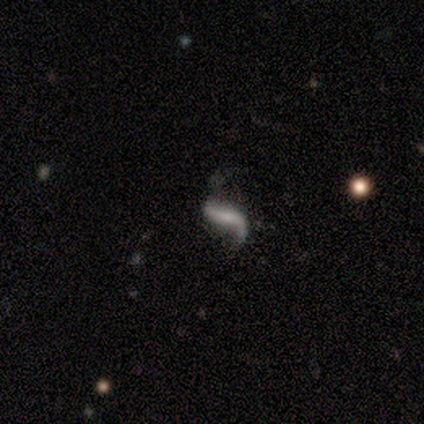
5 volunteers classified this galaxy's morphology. Smooth or featured: featured or disk — 80% (smooth — 20%)
Edge-on disk: no — 100%
Bar: weak — 75% (no — 25%)
Spiral arms: yes — 100%
Spiral winding: loose — 100%
Spiral arm count: 2 — 100%
Bulge size: small — 75% (none — 25%)
Merging: none — 80% (major disturbance — 20%)